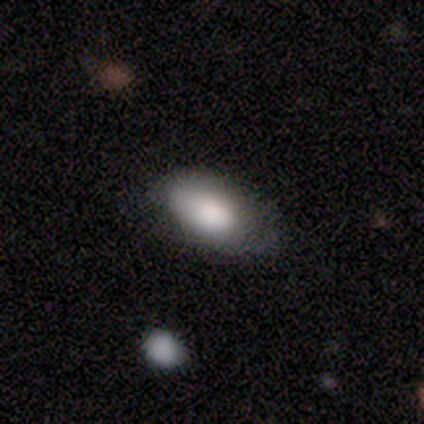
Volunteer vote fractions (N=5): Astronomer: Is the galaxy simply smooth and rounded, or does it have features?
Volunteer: smooth — 60%.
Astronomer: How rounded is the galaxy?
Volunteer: in between — 100%.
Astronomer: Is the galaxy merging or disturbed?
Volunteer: none — 100%.